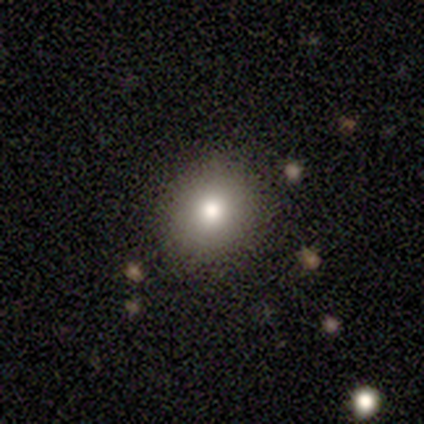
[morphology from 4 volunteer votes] Q: Smooth or featured?
A: smooth (100%)
Q: How rounded?
A: round (75%); runner-up: in between (25%)
Q: Merging?
A: none (100%)